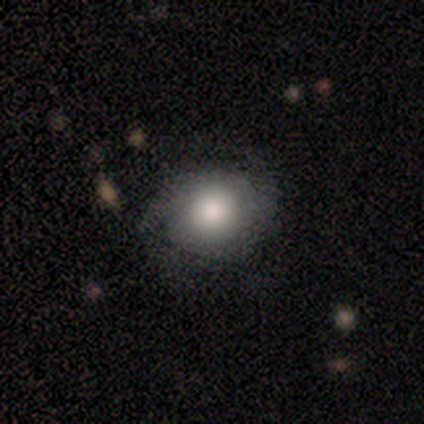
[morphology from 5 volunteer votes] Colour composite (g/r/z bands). It shows a smooth galaxy with no disk features (60%) that is in between round and cigar-shaped (100%). Merging: none (60%).